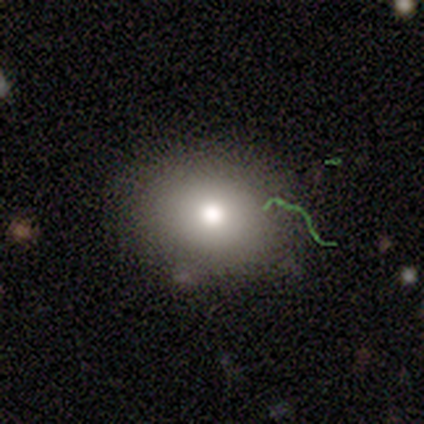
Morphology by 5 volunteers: Smooth or featured?
  - smooth: 80% *
  - star or artifact: 20%
  - featured or disk: 0%
How rounded?
  - round: 75% *
  - in between: 25%
  - cigar-shaped: 0%
Merging?
  - none: 100% *
  - minor disturbance: 0%
  - major disturbance: 0%
  - merger: 0%